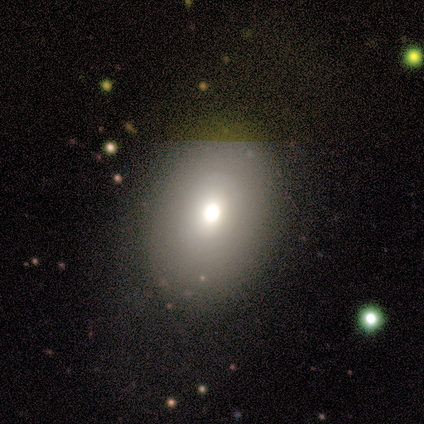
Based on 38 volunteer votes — This appears to be a smooth galaxy with no disk features (82%) that is in between round and cigar-shaped (74%). Merging: none (85%).